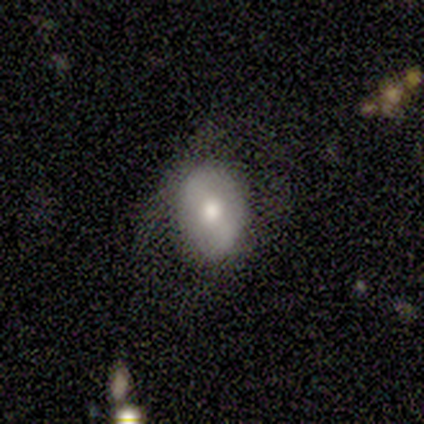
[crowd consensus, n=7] smooth-or-featured: featured or disk: 43% | smooth: 29% | star or artifact: 29%
  disk-edge-on: no: 100% | yes: 0%
    bar: strong: 33% (tied) | weak: 33% (tied) | no: 33% (tied)
    has-spiral-arms: no: 67% | yes: 33%
    bulge-size: moderate: 67% | large: 33% | dominant: 0% | small: 0% | none: 0%
  merging: none: 60% | major disturbance: 40% | minor disturbance: 0% | merger: 0%